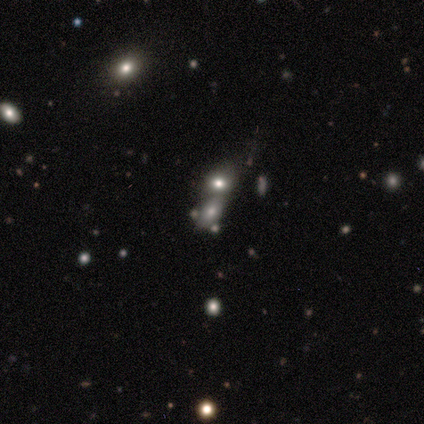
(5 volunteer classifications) Morphology: type=smooth (80%); roundness=in between (100%); merging=merger (80%).